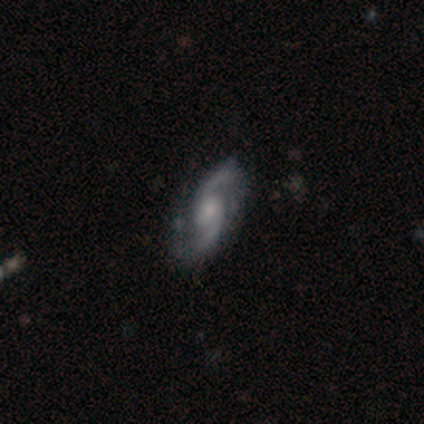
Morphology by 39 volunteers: smooth-or-featured: featured or disk: 87% | star or artifact: 8% | smooth: 5%
  disk-edge-on: no: 97% | yes: 3%
    bar: weak: 52% | no: 45% | strong: 3%
    has-spiral-arms: yes: 97% | no: 3%
      spiral-winding: medium: 56% | loose: 34% | tight: 9%
      spiral-arm-count: 2: 100% | 1: 0% | 3: 0% | 4: 0% | more than 4: 0% | can't tell: 0%
    bulge-size: small: 55% | moderate: 39% | large: 6% | dominant: 0% | none: 0%
  merging: none: 56% | minor disturbance: 39% | major disturbance: 3% | merger: 3%